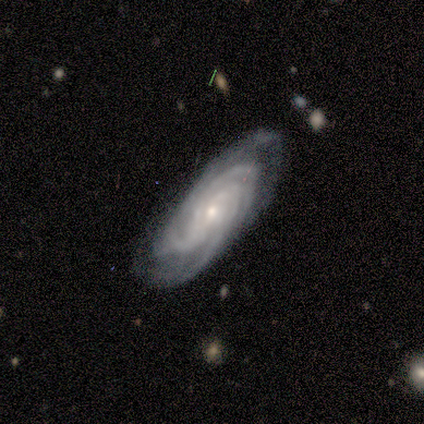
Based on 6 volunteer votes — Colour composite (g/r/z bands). It shows a featured or disk galaxy (100%) with a weak bar (60%), 4 (40%, tied with can't tell) tight (80%) spiral arms (100%) and a small central bulge (80%). Merging: none (67%).